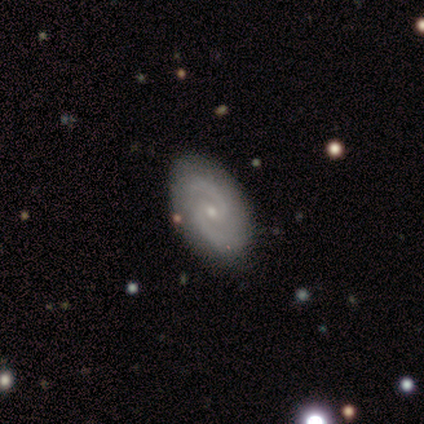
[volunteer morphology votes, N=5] Q: Smooth or featured?
A: featured or disk (100%)
Q: Edge-on disk?
A: no (100%)
Q: Bar?
A: weak (100%)
Q: Spiral arms?
A: yes (100%)
Q: Spiral winding?
A: medium (80%); runner-up: loose (20%)
Q: Spiral arm count?
A: 2 (60%); runner-up: 1 (20%)
Q: Bulge size?
A: small (100%)
Q: Merging?
A: none (100%)